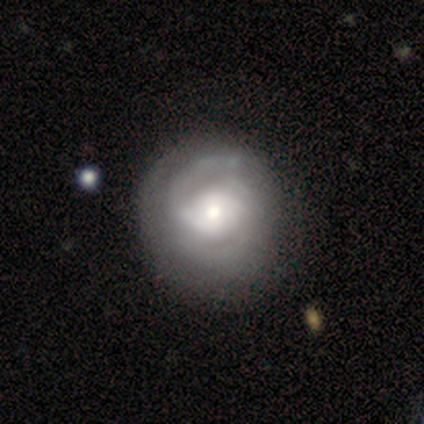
smooth_or_featured: featured or disk (p=1.00)
disk_edge_on: no (p=1.00)
bar: weak (p=0.60) [alt: no p=0.40]
has_spiral_arms: yes (p=1.00)
spiral_winding: tight (p=0.60) [alt: medium p=0.20]
spiral_arm_count: 2 (p=0.60) [alt: 1 p=0.20]
bulge_size: moderate (p=0.60) [alt: small p=0.40]
merging: none (p=0.60) [alt: minor disturbance p=0.40]